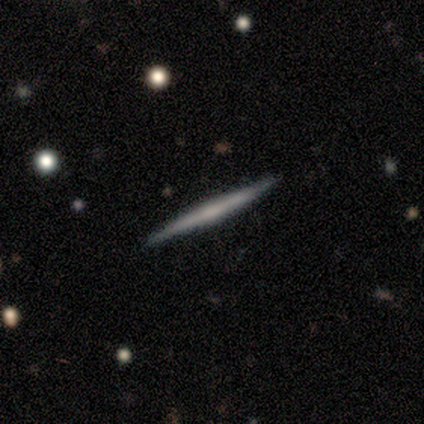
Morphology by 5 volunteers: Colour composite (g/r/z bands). It shows a featured or disk galaxy (60%) viewed edge-on (100%) with no central bulge (67%). Merging: none (100%).